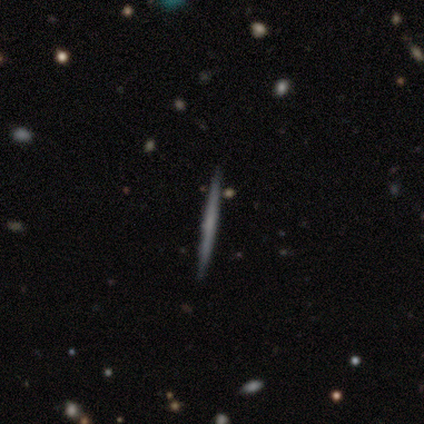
Q: Smooth or featured?
A: featured or disk (80%); runner-up: smooth (20%)
Q: Edge-on disk?
A: yes (100%)
Q: Edge-on bulge?
A: none (100%)
Q: Merging?
A: none (100%)